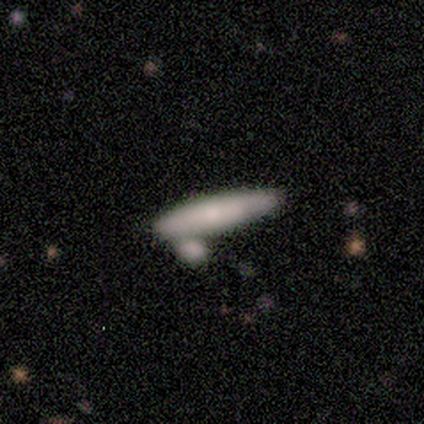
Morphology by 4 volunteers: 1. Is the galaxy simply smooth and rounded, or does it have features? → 100% smooth, 0% featured or disk, 0% star or artifact.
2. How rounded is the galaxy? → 100% cigar-shaped, 0% round, 0% in between.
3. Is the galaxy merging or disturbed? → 50% none (tied), 50% merger (tied), 0% minor disturbance, 0% major disturbance.